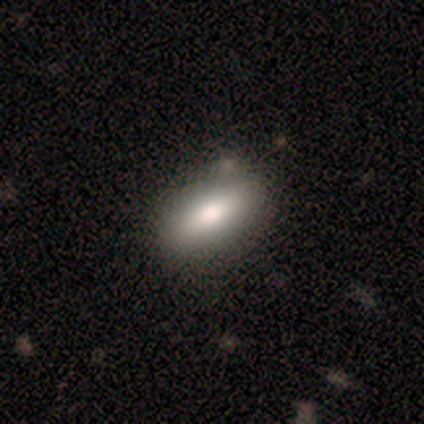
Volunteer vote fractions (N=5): smooth-or-featured: smooth: 60% | featured or disk: 20% | star or artifact: 20%
  how-rounded: in between: 67% | cigar-shaped: 33% | round: 0%
  merging: none: 100% | minor disturbance: 0% | major disturbance: 0% | merger: 0%